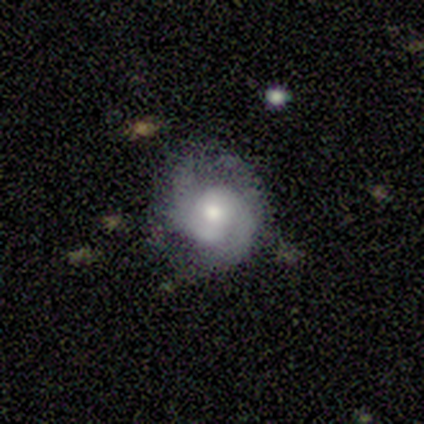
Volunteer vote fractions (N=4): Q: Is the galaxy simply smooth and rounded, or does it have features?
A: featured or disk — 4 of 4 (100%).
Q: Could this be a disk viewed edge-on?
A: no — 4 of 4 (100%).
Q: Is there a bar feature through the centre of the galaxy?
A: weak — 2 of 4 (50%, tied with no).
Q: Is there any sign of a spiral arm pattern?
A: yes — 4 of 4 (100%).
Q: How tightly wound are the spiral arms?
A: medium — 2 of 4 (50%, tied with loose).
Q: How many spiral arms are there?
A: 2 — 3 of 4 (75%).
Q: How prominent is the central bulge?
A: moderate — 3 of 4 (75%).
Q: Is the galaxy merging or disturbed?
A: none — 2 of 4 (50%, tied with minor disturbance).